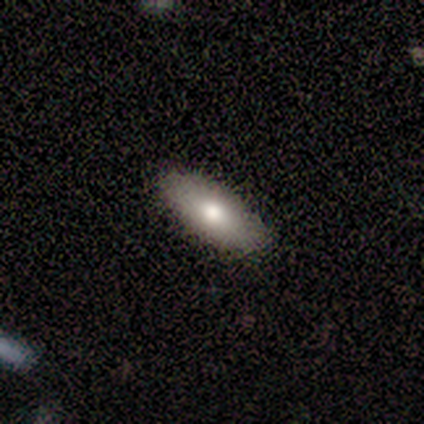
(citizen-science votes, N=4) smooth_or_featured: smooth (p=1.00)
how_rounded: in between (p=0.75) [alt: cigar-shaped p=0.25]
merging: none (p=1.00)